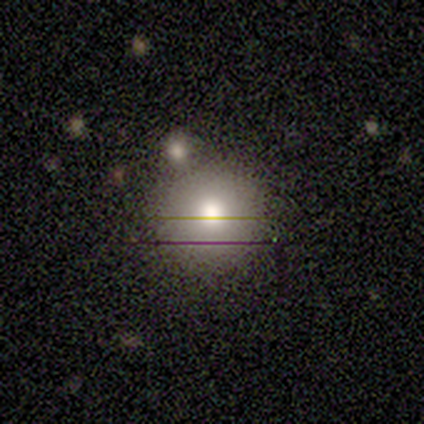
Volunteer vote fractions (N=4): smooth_or_featured: smooth (p=0.50) [alt: featured or disk p=0.25]
how_rounded: round (p=1.00)
merging: none (p=0.67) [alt: merger p=0.33]